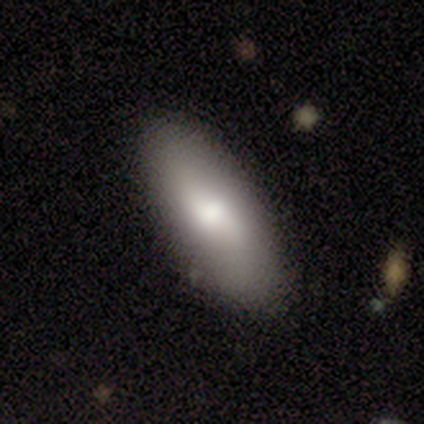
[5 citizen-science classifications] Morphology: type=smooth (80%); roundness=in between (100%); merging=none (100%).